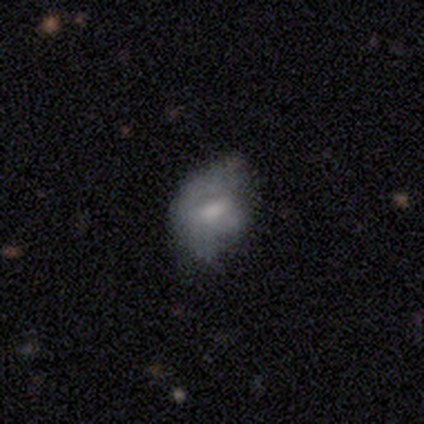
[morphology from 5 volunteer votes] smooth_or_featured: featured or disk (p=0.60) [alt: smooth p=0.40]
disk_edge_on: no (p=1.00)
bar: weak (p=1.00)
has_spiral_arms: no (p=0.67) [alt: yes p=0.33]
bulge_size: moderate (p=0.33) [tied with: small p=0.33, none p=0.33]
merging: minor disturbance (p=0.40) [tied with: major disturbance p=0.40]